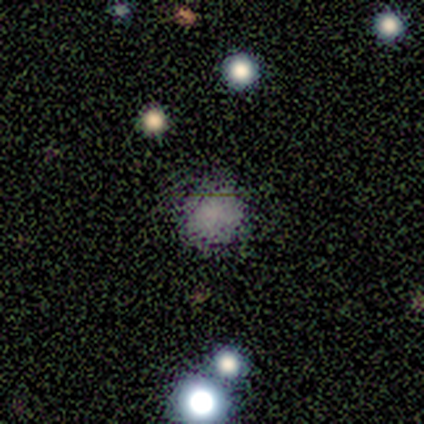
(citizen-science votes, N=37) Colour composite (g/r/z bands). It shows a smooth galaxy with no disk features (68%) that is round (84%). Merging: none (71%).